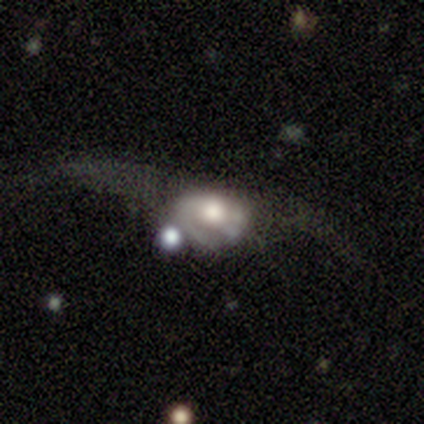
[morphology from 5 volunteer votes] Overall: featured or disk (60%; smooth 40%). Edge-on disk: no (100%). Bar: no (100%). Spiral arms: yes (100%). Spiral arm count: 1 (67%; can't tell 33%). Spiral winding: tight (33%, tied with medium and loose). Bulge size: moderate (100%). Merging: major disturbance (40%; none 20%).